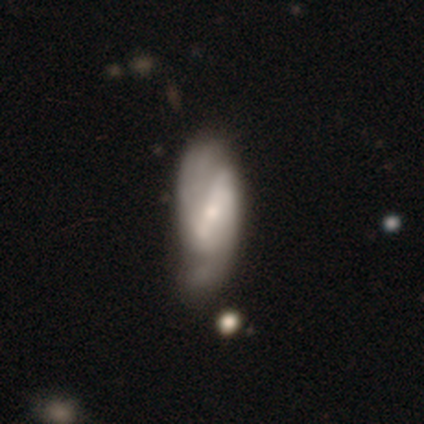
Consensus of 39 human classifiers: Smooth or featured? 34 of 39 (87%) said featured or disk. Edge-on disk? 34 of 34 (100%) said no. Bar? 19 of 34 (56%) said strong. Spiral arms? 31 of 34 (91%) said yes. Spiral winding? 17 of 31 (55%) said medium. Spiral arm count? 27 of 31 (87%) said 2. Bulge size? 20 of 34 (59%) said small. Merging? 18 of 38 (47%) said none.